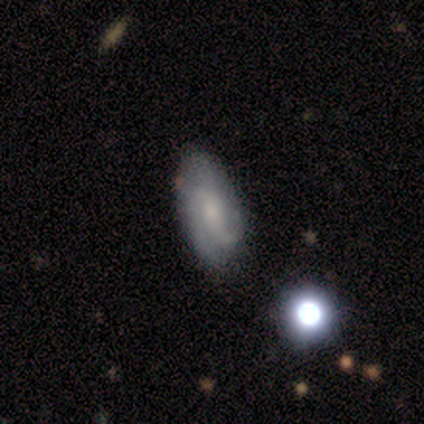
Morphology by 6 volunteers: smooth 50% (tied), featured or disk 50% (tied), star or artifact 0%. Down the decision tree: how rounded — in between (67%); merging — none (67%).